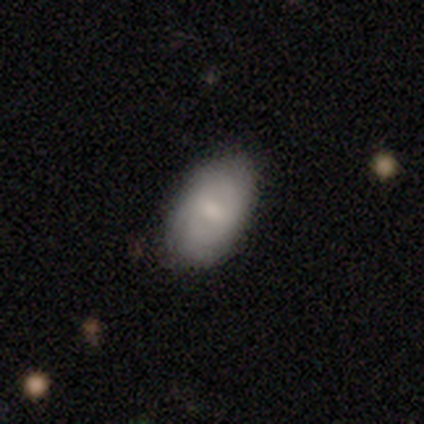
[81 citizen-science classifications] Volunteers were most divided on "smooth or featured": smooth: 69%, featured or disk: 23%, star or artifact: 7%. More confident: how rounded — in between (100%); merging — none (81%).